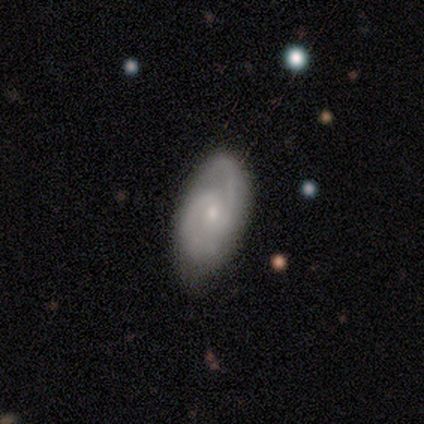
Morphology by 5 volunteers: Overall: smooth (60%; featured or disk 40%). How rounded: in between (67%; cigar-shaped 33%). Merging: none (60%; minor disturbance 20%).